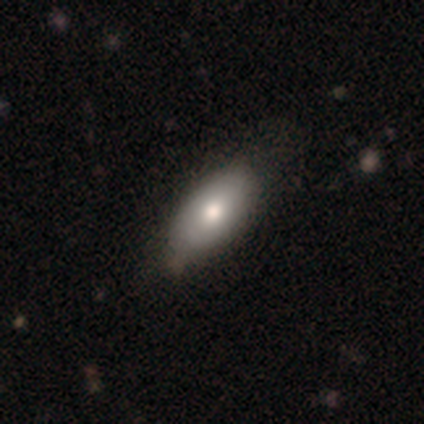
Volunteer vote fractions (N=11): Q: Smooth or featured?
A: smooth (73%); runner-up: featured or disk (18%)
Q: How rounded?
A: in between (100%)
Q: Merging?
A: none (80%); runner-up: minor disturbance (20%)